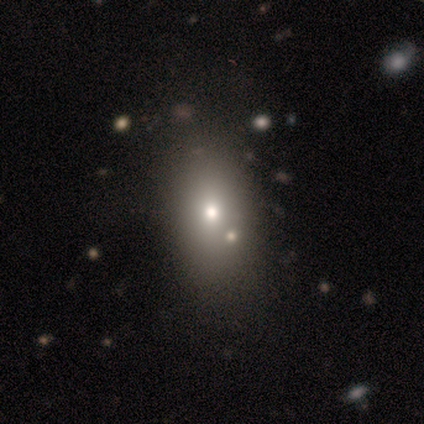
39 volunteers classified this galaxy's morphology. This appears to be a smooth galaxy with no disk features (74%) that is in between round and cigar-shaped (79%). Merging: none (68%).